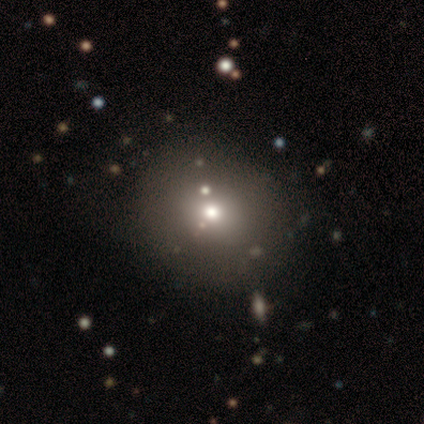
Smooth or featured? 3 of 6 (50%) said smooth. How rounded? 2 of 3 (67%) said in between. Merging? 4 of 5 (80%) said none.